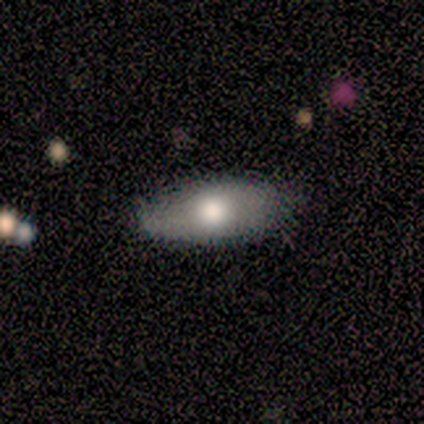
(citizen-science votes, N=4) Smooth or featured? 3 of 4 (75%) said smooth. How rounded? 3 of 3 (100%) said in between. Merging? 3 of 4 (75%) said minor disturbance.